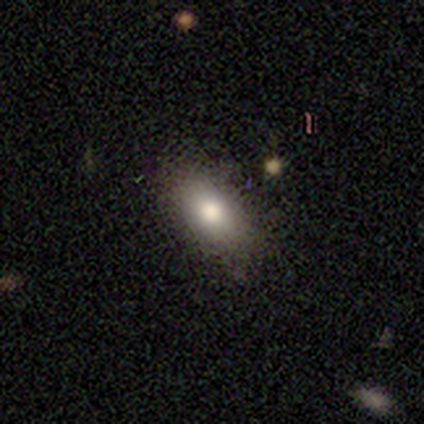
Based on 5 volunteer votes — Smooth or featured: smooth — 100%
How rounded: in between — 100%
Merging: none — 100%